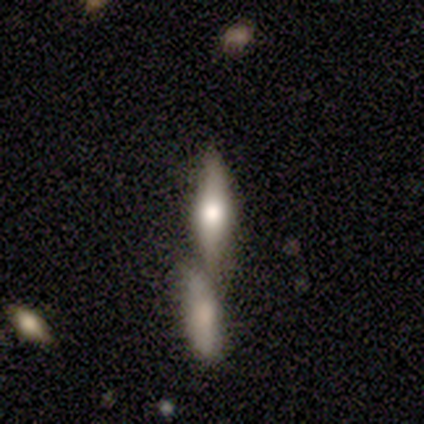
Morphology: type=featured or disk (78%); edge-on=yes (81%); edge-on bulge=rounded (88%); merging=merger (58%).